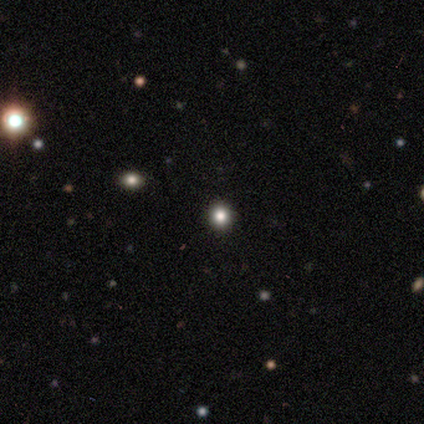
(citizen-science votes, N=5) This appears to be a star or artifact, not a galaxy (60%).